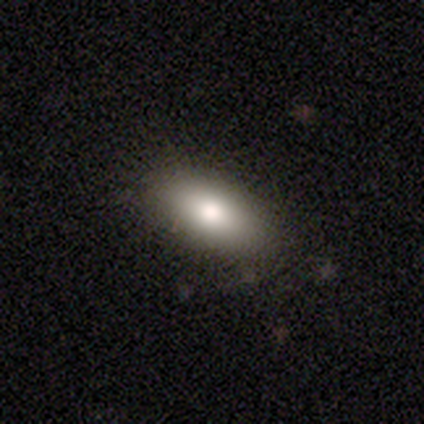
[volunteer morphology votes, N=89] A smooth galaxy with no disk features (84%) that is in between round and cigar-shaped (92%).

Vote fractions:
- Smooth or featured? smooth: 84% / featured or disk: 10% / star or artifact: 6%
- How rounded? in between: 92% / cigar-shaped: 5% / round: 3%
- Merging? none: 81% / minor disturbance: 17% / major disturbance: 1% / merger: 1%